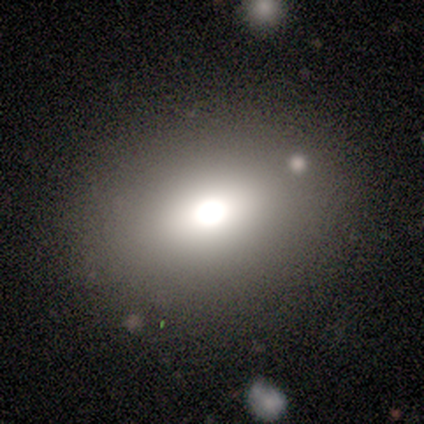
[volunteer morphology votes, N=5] This appears to be a smooth galaxy with no disk features (40%, tied with star or artifact) that is round (50%, tied with in between). Merging: none (67%).